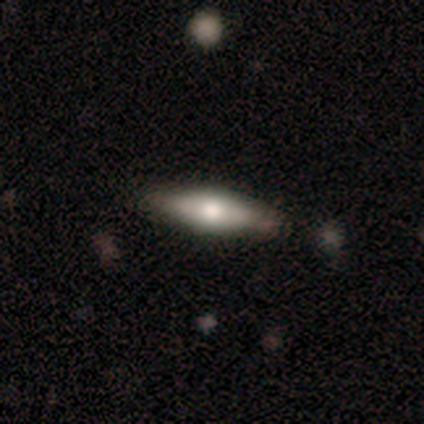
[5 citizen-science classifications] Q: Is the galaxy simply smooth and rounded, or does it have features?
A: featured or disk — 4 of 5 (80%).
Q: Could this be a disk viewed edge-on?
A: yes — 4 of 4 (100%).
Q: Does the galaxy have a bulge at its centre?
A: rounded — 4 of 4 (100%).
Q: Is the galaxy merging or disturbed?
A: none — 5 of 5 (100%).